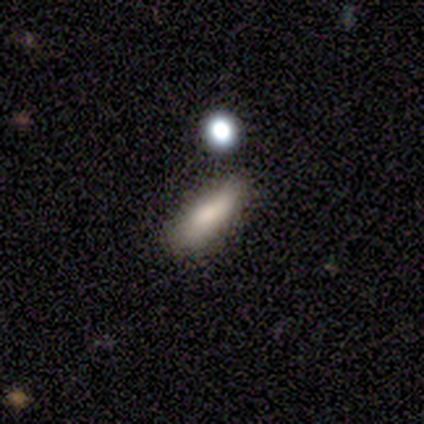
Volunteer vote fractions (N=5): smooth 60%, featured or disk 20%, star or artifact 20%. Down the decision tree: how rounded — in between (67%); merging — major disturbance (50%).